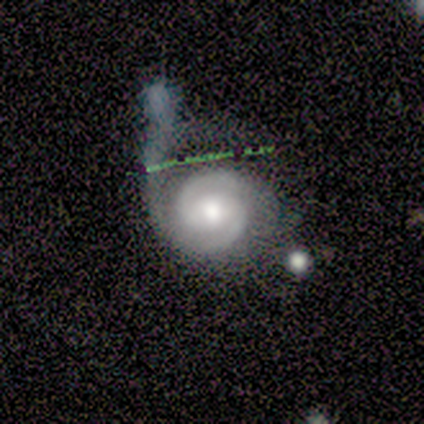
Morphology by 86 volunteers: Smooth or featured?
  - featured or disk: 84% *
  - star or artifact: 9%
  - smooth: 7%
Edge-on disk?
  - no: 99% *
  - yes: 1%
Bar?
  - no: 52% *
  - weak: 31%
  - strong: 17%
Spiral arms?
  - yes: 97% *
  - no: 3%
Spiral winding?
  - tight: 67% *
  - medium: 26%
  - loose: 7%
Spiral arm count?
  - 2: 91% *
  - 1: 4%
  - 3: 4%
  - 4: 0%
  - more than 4: 0%
  - can't tell: 0%
Bulge size?
  - moderate: 58% *
  - large: 35%
  - dominant: 3%
  - small: 3%
  - none: 1%
Merging?
  - major disturbance: 50% *
  - merger: 23%
  - none: 14%
  - minor disturbance: 13%